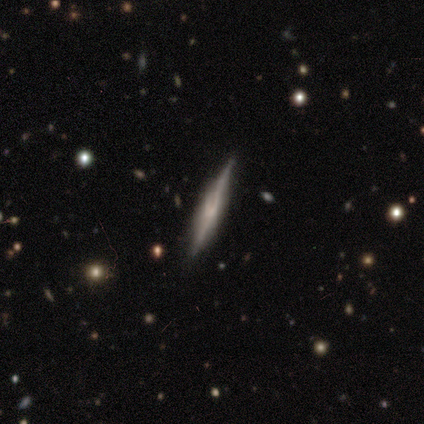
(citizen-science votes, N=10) smooth_or_featured: featured or disk (p=0.80) [alt: smooth p=0.10]
disk_edge_on: yes (p=1.00)
edge_on_bulge: none (p=0.38) [tied with: rounded p=0.38]
merging: none (p=0.78) [alt: minor disturbance p=0.22]